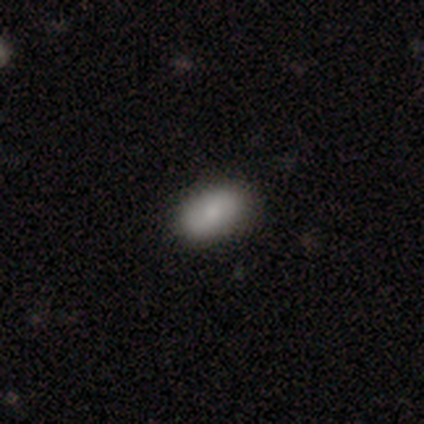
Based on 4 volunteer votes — Q: Smooth or featured?
A: smooth (75%); runner-up: star or artifact (25%)
Q: How rounded?
A: in between (100%)
Q: Merging?
A: none (100%)